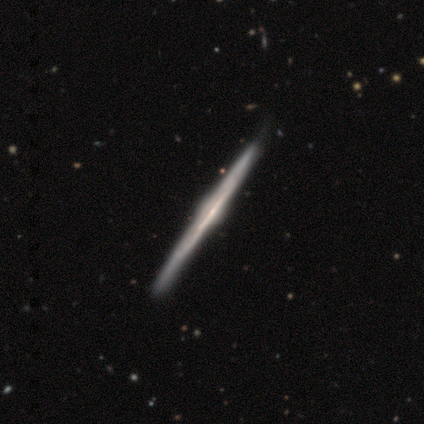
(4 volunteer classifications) Q: Smooth or featured?
A: featured or disk (75%); runner-up: smooth (25%)
Q: Edge-on disk?
A: yes (100%)
Q: Edge-on bulge?
A: rounded (67%); runner-up: none (33%)
Q: Merging?
A: none (75%); runner-up: minor disturbance (25%)